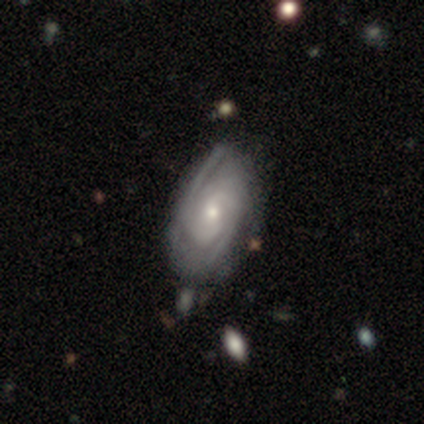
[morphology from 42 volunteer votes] featured or disk 88%, smooth 10%, star or artifact 2%. Down the decision tree: edge-on disk — no (95%); bar — no (69%); spiral arms — yes (91%); spiral arm count — 2 (41%); spiral winding — tight (59%); bulge size — small (54%); merging — none (46%).